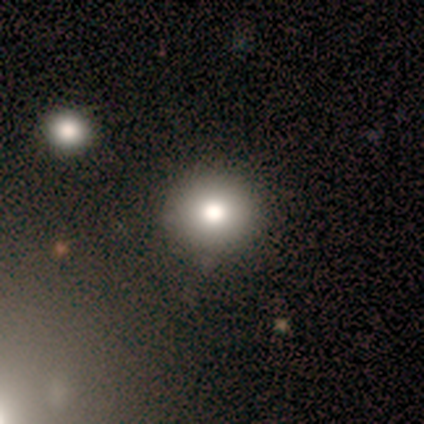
A smooth galaxy with no disk features (80%) that is round (50%, tied with in between). Merging: none (75%).